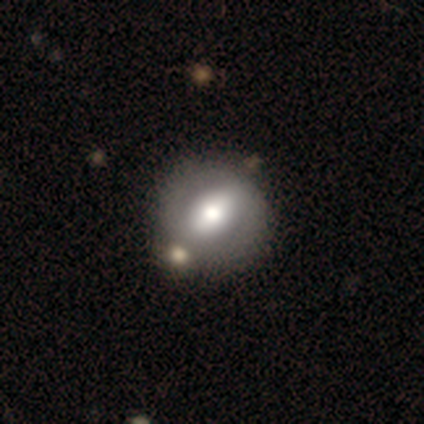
smooth_or_featured: smooth (p=0.50) [tied with: featured or disk p=0.50]
how_rounded: round (p=0.58) [alt: in between p=0.42]
merging: none (p=0.55) [alt: merger p=0.13]